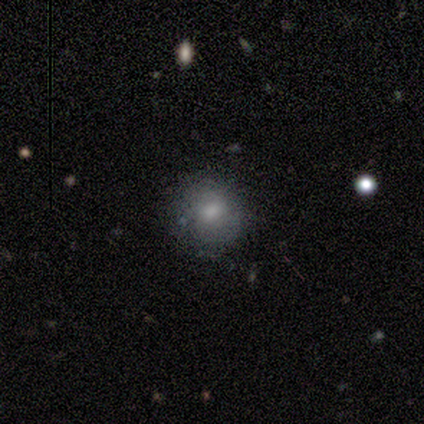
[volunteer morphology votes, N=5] Smooth or featured: smooth — 60% (featured or disk — 20%)
How rounded: round — 100%
Merging: none — 75% (minor disturbance — 25%)